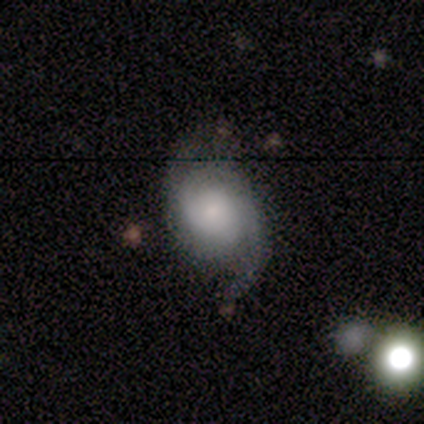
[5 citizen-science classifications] A featured or disk galaxy (100%) with no bar (80%), 2 (60%) medium (60%) spiral arms (100%) and a small central bulge (60%).

Vote fractions:
- Smooth or featured? featured or disk: 100% / smooth: 0% / star or artifact: 0%
- Edge-on disk? no: 100% / yes: 0%
- Bar? no: 80% / strong: 20% / weak: 0%
- Spiral arms? yes: 100% / no: 0%
- Spiral winding? medium: 60% / tight: 40% / loose: 0%
- Spiral arm count? 2: 60% / can't tell: 40% / 1: 0% / 3: 0% / 4: 0% / more than 4: 0%
- Bulge size? small: 60% / large: 20% / moderate: 20% / dominant: 0% / none: 0%
- Merging? none: 60% / minor disturbance: 20% / merger: 20% / major disturbance: 0%